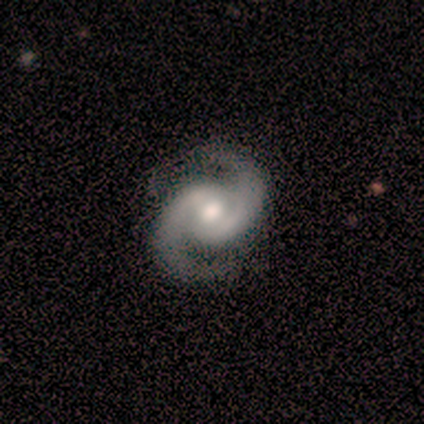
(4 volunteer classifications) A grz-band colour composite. It shows a featured or disk galaxy (100%) with a weak bar (75%), 2 (100%) medium (75%) spiral arms (100%) and a moderate central bulge (50%, tied with small). Merging: none (100%).